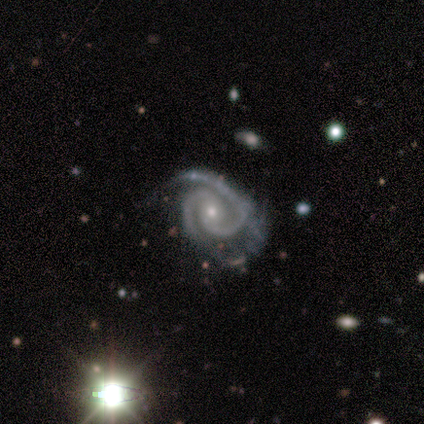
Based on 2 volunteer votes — Volunteers were most divided on "bar" (2-way tie): weak: 50%, no: 50%, strong: 0%; "merging" (2-way tie): none: 50%, minor disturbance: 50%, major disturbance: 0%, merger: 0%. More confident: smooth or featured — featured or disk (100%); edge-on disk — no (100%); spiral arms — yes (100%); spiral winding — tight (100%); spiral arm count — 2 (100%); bulge size — small (100%).